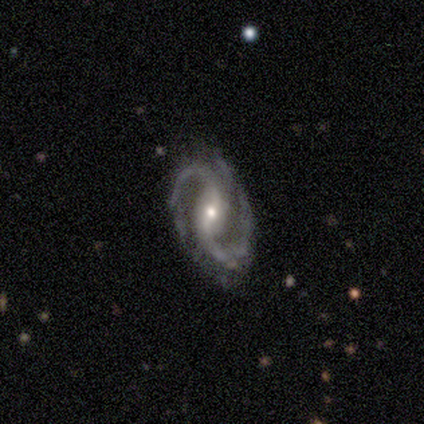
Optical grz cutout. It shows a featured or disk galaxy (100%) with a strong bar (75%), 2 (100%) tight (33%, tied with medium and loose) spiral arms (75%) and a moderate central bulge (50%, tied with small). Merging: none (100%).